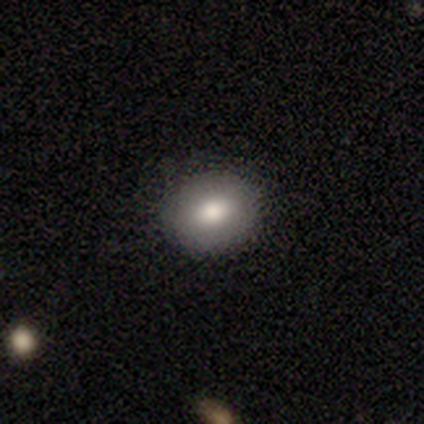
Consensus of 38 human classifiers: Morphology: type=smooth (71%); roundness=round (63%); merging=none (91%).